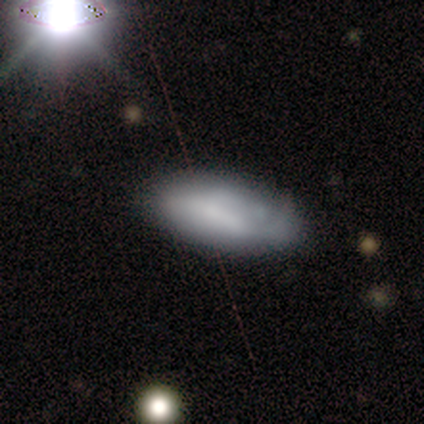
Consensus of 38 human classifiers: smooth-or-featured: smooth: 45% | featured or disk: 42% | star or artifact: 13%
  how-rounded: in between: 94% | cigar-shaped: 6% | round: 0%
  merging: none: 52% | minor disturbance: 39% | major disturbance: 6% | merger: 3%